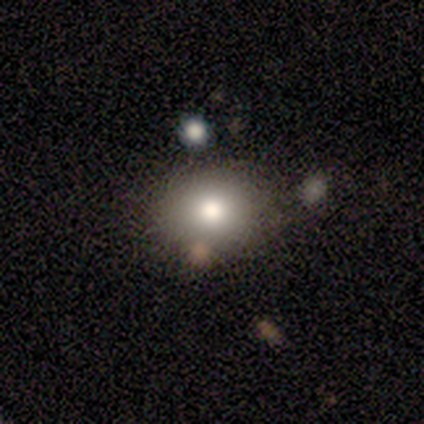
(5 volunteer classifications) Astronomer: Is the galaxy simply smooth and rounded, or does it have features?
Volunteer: smooth — 100%.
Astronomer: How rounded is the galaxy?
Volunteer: in between — 80%.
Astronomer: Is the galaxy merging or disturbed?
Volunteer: none — 80%.